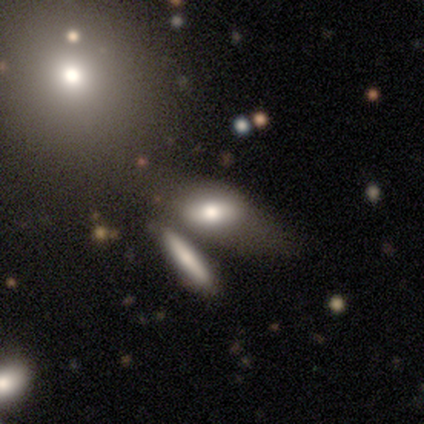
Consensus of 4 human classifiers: smooth-or-featured: smooth: 50% (tied) | featured or disk: 50% (tied) | star or artifact: 0%
  how-rounded: in between: 50% (tied) | cigar-shaped: 50% (tied) | round: 0%
  merging: major disturbance: 50% | none: 25% | merger: 25% | minor disturbance: 0%